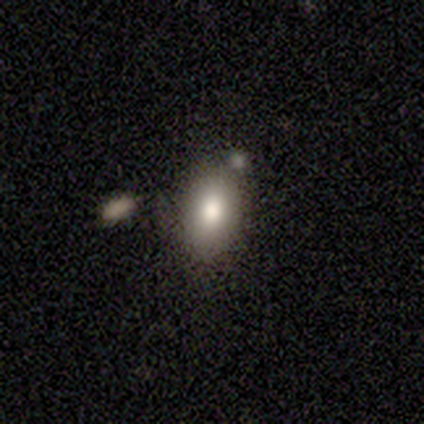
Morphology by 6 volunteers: Smooth or featured?
  - smooth: 83% *
  - featured or disk: 17%
  - star or artifact: 0%
How rounded?
  - in between: 80% *
  - round: 20%
  - cigar-shaped: 0%
Merging?
  - none: 67% *
  - merger: 33%
  - minor disturbance: 0%
  - major disturbance: 0%